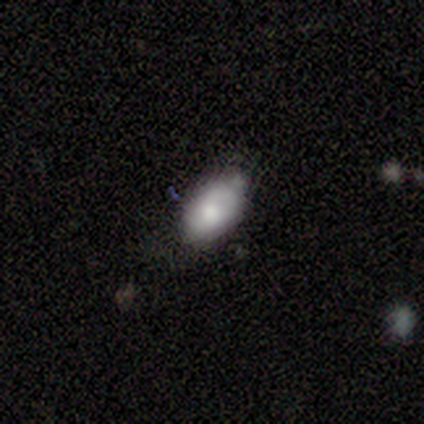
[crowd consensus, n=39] Q: Smooth or featured?
A: smooth (77%); runner-up: featured or disk (21%)
Q: How rounded?
A: in between (97%); runner-up: round (3%)
Q: Merging?
A: none (53%); runner-up: minor disturbance (45%)